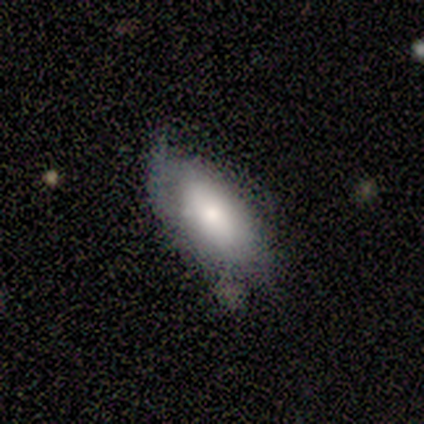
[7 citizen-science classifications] A smooth galaxy with no disk features (86%) that is in between round and cigar-shaped (83%). Merging: none (57%).